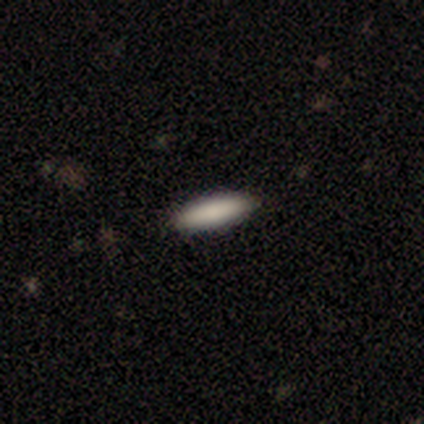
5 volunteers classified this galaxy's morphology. smooth 100%, featured or disk 0%, star or artifact 0%. Down the decision tree: how rounded — cigar-shaped (80%); merging — none (100%).